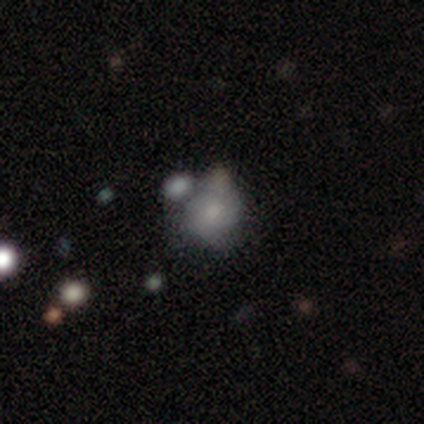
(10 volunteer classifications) Smooth or featured? smooth (50%)
How rounded? in between (80%)
Merging? major disturbance (33%, tied with merger)